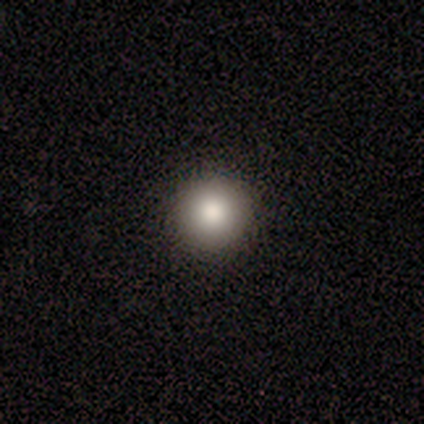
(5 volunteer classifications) Smooth or featured? featured or disk (40%, tied with star or artifact)
Edge-on disk? no (100%)
Bar? no (100%)
Spiral arms? no (100%)
Bulge size? large (100%)
Merging? none (100%)